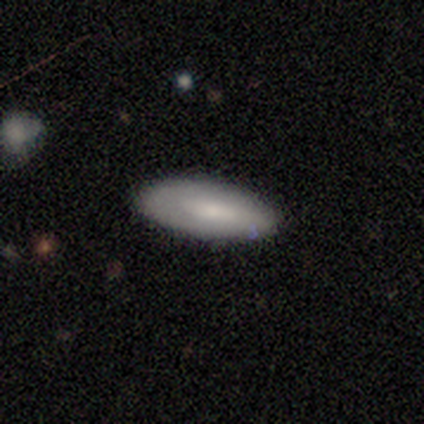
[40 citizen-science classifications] A smooth galaxy with no disk features (82%) that is in between round and cigar-shaped (88%). Merging: none (82%).